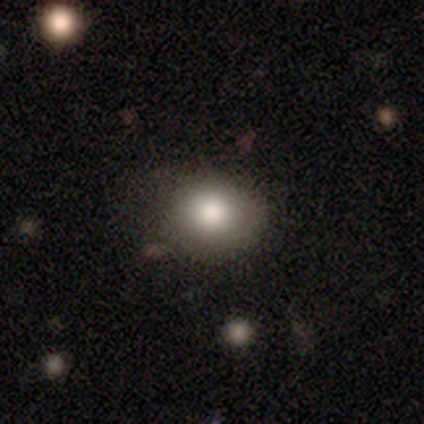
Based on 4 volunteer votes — This appears to be a smooth galaxy with no disk features (75%) that is round (67%). Merging: none (100%).